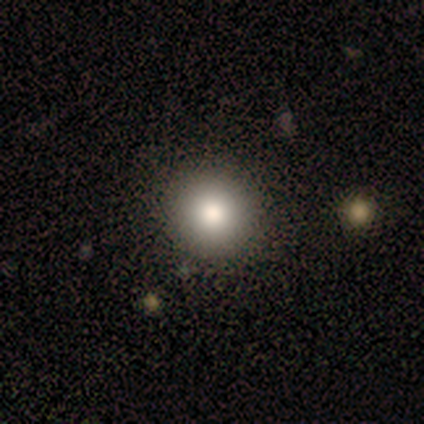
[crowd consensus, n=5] smooth_or_featured: smooth (p=1.00)
how_rounded: round (p=1.00)
merging: none (p=0.80) [alt: minor disturbance p=0.20]